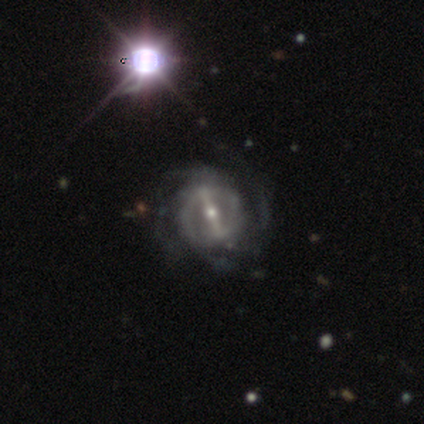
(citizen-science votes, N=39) Overall: featured or disk (97%). Edge-on disk: no (100%). Bar: strong (84%). Spiral arms: yes (84%). Spiral arm count: 4 (38%; 2 34%). Spiral winding: medium (53%; tight 25%). Bulge size: moderate (50%; small 45%). Merging: none (50%; minor disturbance 21%).